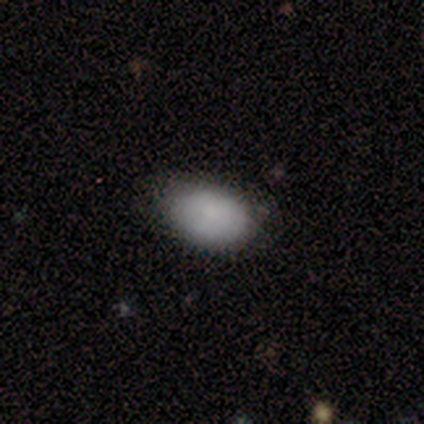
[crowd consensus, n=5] Smooth or featured? 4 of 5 (80%) said smooth. How rounded? 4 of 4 (100%) said in between. Merging? 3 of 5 (60%) said none.